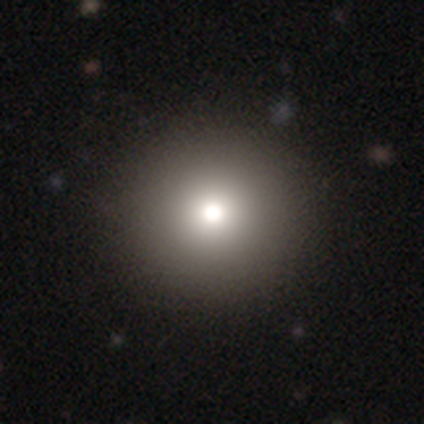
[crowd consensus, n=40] A smooth galaxy with no disk features (78%) that is round (94%). Merging: none (50%).